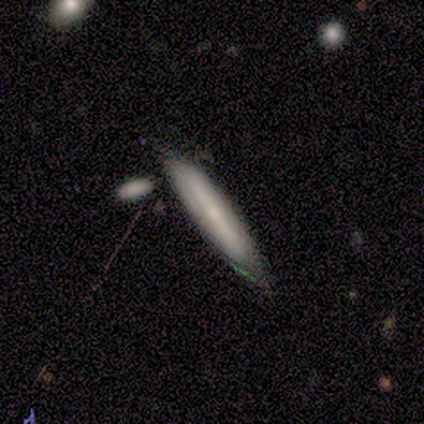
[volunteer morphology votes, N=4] This appears to be a smooth galaxy with no disk features (50%, tied with featured or disk) that is cigar-shaped (100%). Merging: none (50%, tied with minor disturbance).